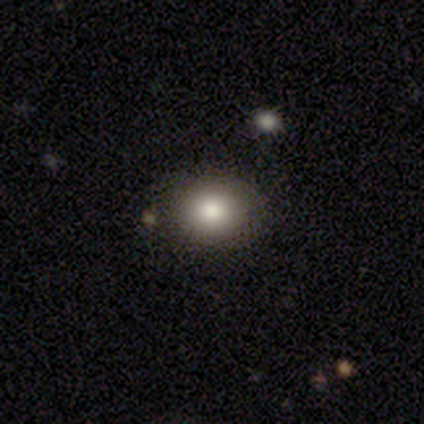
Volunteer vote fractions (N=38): smooth_or_featured: smooth (p=0.79) [alt: star or artifact p=0.13]
how_rounded: round (p=0.60) [alt: in between p=0.40]
merging: none (p=0.85) [alt: minor disturbance p=0.12]